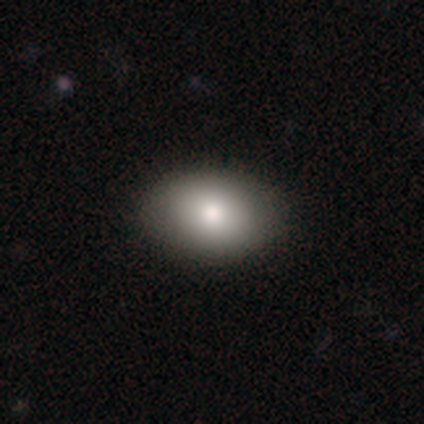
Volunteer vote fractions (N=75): A smooth galaxy with no disk features (87%) that is in between round and cigar-shaped (69%).

Vote fractions:
- Smooth or featured? smooth: 87% / featured or disk: 12% / star or artifact: 1%
- How rounded? in between: 69% / round: 31% / cigar-shaped: 0%
- Merging? none: 51% / merger: 3% / minor disturbance: 0% / major disturbance: 0%